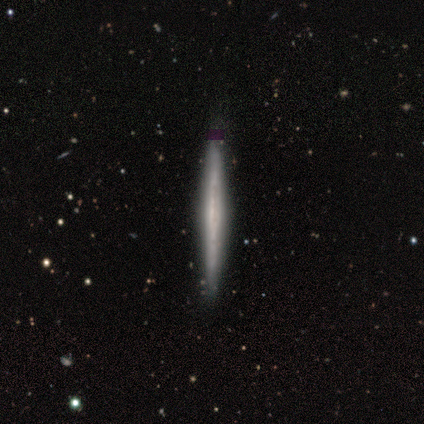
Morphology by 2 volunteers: Smooth or featured: featured or disk — 100%
Edge-on disk: yes — 100%
Edge-on bulge: none — 100%
Merging: none — 100%